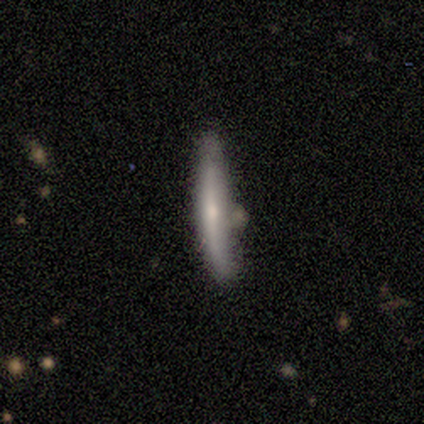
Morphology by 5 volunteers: Overall: featured or disk (80%). Edge-on disk: yes (75%). Edge-on bulge: rounded (67%; none 33%). Merging: none (80%).